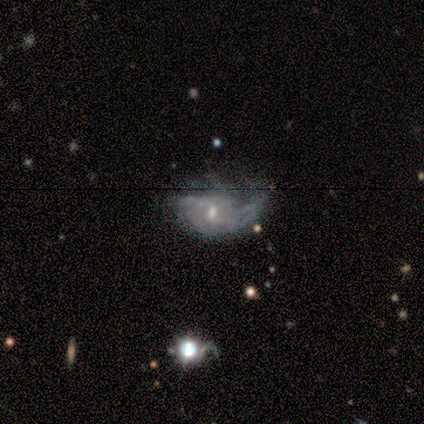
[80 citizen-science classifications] Smooth or featured: featured or disk — 85% (smooth — 8%)
Edge-on disk: no — 100%
Bar: weak — 59% (no — 41%)
Spiral arms: yes — 87% (no — 13%)
Spiral winding: loose — 42% (medium — 36%)
Spiral arm count: can't tell — 46% (1 — 25%)
Bulge size: small — 60% (moderate — 32%)
Merging: minor disturbance — 19% (major disturbance — 18%)